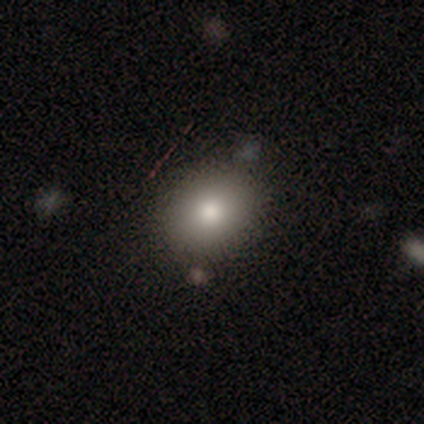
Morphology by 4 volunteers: type=featured or disk (75%); edge-on=no (100%); bar=no (100%); spiral arms=no (100%); bulge=large (67%); merging=none (100%).